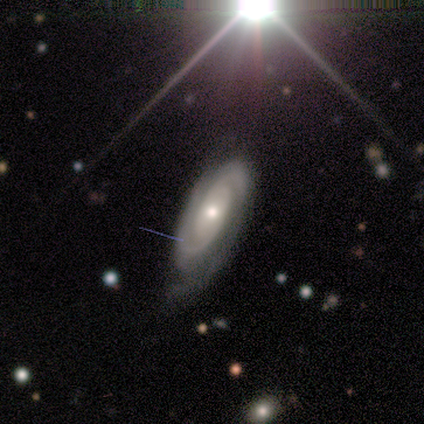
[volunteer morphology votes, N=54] type=featured or disk (80%); edge-on=no (86%); bar=no (89%); spiral arms=yes (97%); winding=tight (75%); arm count=2 (81%); bulge=moderate (51%); merging=none (55%).